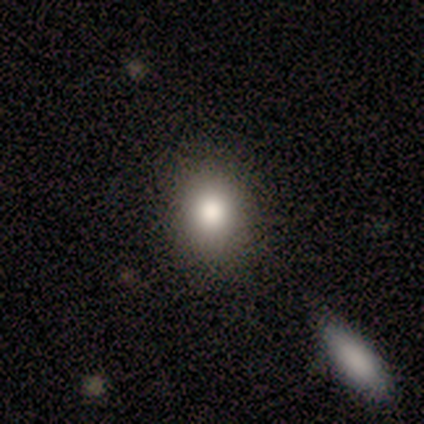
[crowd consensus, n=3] Smooth or featured? smooth (100%)
How rounded? round (67%)
Merging? minor disturbance (67%)